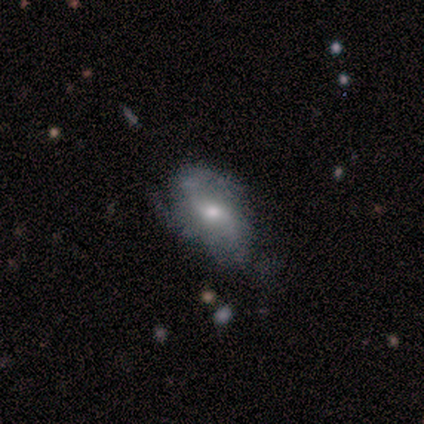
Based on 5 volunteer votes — smooth_or_featured: featured or disk (p=0.40) [tied with: star or artifact p=0.40]
disk_edge_on: no (p=1.00)
bar: weak (p=0.50) [tied with: no p=0.50]
has_spiral_arms: yes (p=1.00)
spiral_winding: medium (p=1.00)
spiral_arm_count: 1 (p=0.50) [tied with: can't tell p=0.50]
bulge_size: moderate (p=1.00)
merging: none (p=0.67) [alt: minor disturbance p=0.33]